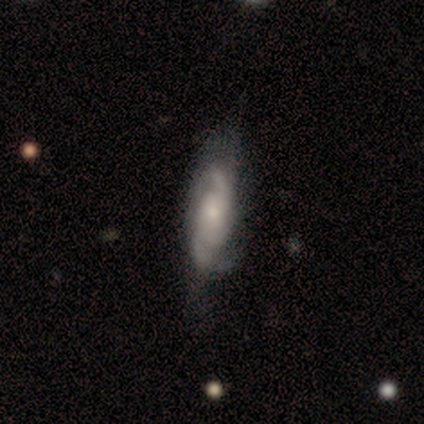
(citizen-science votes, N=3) smooth_or_featured: featured or disk (p=1.00)
disk_edge_on: no (p=1.00)
bar: weak (p=0.67) [alt: no p=0.33]
has_spiral_arms: yes (p=1.00)
spiral_winding: tight (p=0.33) [tied with: medium p=0.33, loose p=0.33]
spiral_arm_count: 2 (p=1.00)
bulge_size: moderate (p=0.67) [alt: large p=0.33]
merging: minor disturbance (p=0.67) [alt: none p=0.33]